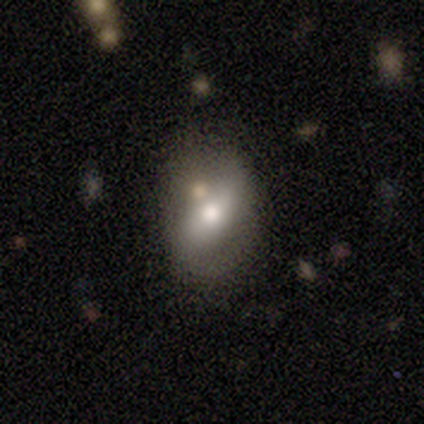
This appears to be a smooth galaxy with no disk features (50%) that is round (50%, tied with in between). Merging: none (67%).